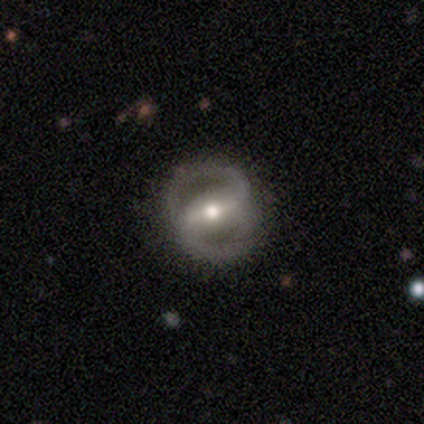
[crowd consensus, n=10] Q: Smooth or featured?
A: featured or disk (90%); runner-up: smooth (10%)
Q: Edge-on disk?
A: no (100%)
Q: Bar?
A: strong (56%); runner-up: weak (33%)
Q: Spiral arms?
A: yes (78%); runner-up: no (22%)
Q: Spiral winding?
A: medium (43%); runner-up: tight (29%)
Q: Spiral arm count?
A: 2 (86%); runner-up: can't tell (14%)
Q: Bulge size?
A: moderate (56%); runner-up: small (22%)
Q: Merging?
A: none (80%); runner-up: minor disturbance (10%)